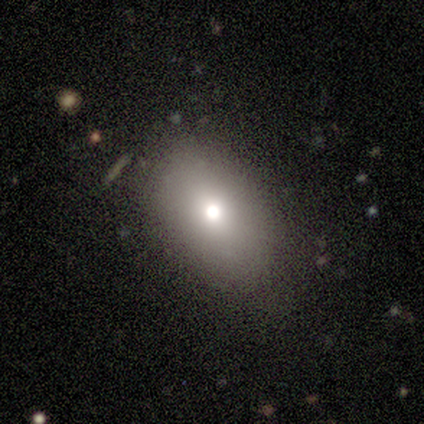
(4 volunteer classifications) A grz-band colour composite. It shows a smooth galaxy with no disk features (75%) that is in between round and cigar-shaped (67%). Merging: none (67%).